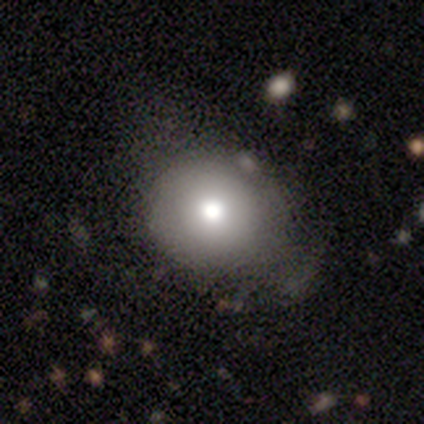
This is likely a smooth galaxy (74%). How rounded: clearly round (89%). Merging: likely none (65%).